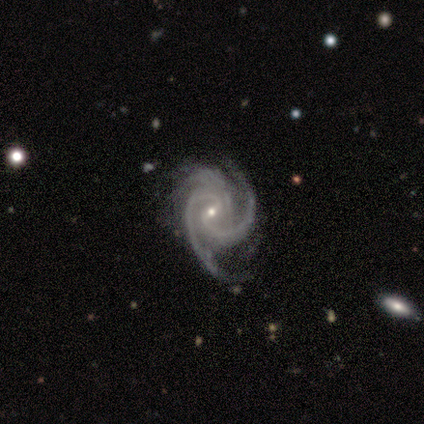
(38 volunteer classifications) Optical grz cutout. It shows a featured or disk galaxy (97%) with a weak bar (70%), 2 (49%) tight (51%) spiral arms (100%) and a small central bulge (76%). Merging: none (47%).